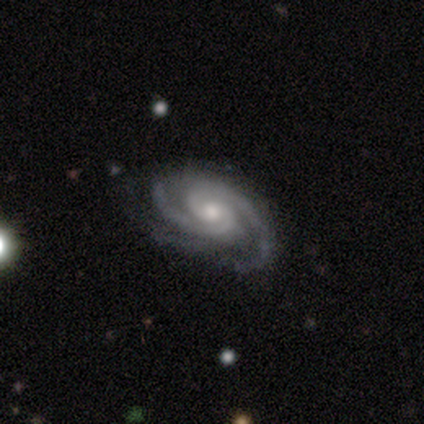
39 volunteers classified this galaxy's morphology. A featured or disk galaxy (97%) with no bar (76%), 2 (62%) medium (51%) spiral arms (100%) and a moderate central bulge (54%).

Vote fractions:
- Smooth or featured? featured or disk: 97% / star or artifact: 3% / smooth: 0%
- Edge-on disk? no: 97% / yes: 3%
- Bar? no: 76% / weak: 22% / strong: 3%
- Spiral arms? yes: 100% / no: 0%
- Spiral winding? medium: 51% / tight: 46% / loose: 3%
- Spiral arm count? 2: 62% / 3: 30% / 4: 5% / can't tell: 3% / 1: 0% / more than 4: 0%
- Bulge size? moderate: 54% / small: 30% / large: 14% / none: 3% / dominant: 0%
- Merging? none: 58% / minor disturbance: 18% / major disturbance: 3% / merger: 0%